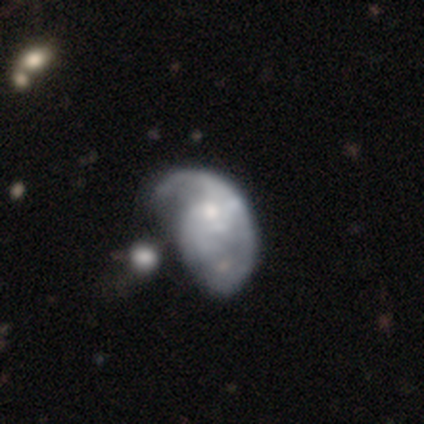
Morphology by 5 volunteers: smooth_or_featured: featured or disk (p=0.60) [alt: smooth p=0.40]
disk_edge_on: no (p=0.67) [alt: yes p=0.33]
bar: no (p=1.00)
has_spiral_arms: yes (p=0.50) [tied with: no p=0.50]
spiral_winding: tight (p=1.00)
spiral_arm_count: 2 (p=1.00)
bulge_size: moderate (p=1.00)
merging: major disturbance (p=0.60) [alt: none p=0.20]